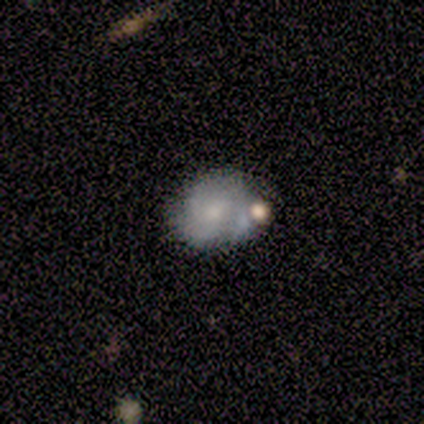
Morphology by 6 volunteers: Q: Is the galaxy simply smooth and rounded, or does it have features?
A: smooth — 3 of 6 (50%, tied with featured or disk).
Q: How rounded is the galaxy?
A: round — 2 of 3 (67%).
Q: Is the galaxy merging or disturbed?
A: major disturbance — 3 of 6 (50%).